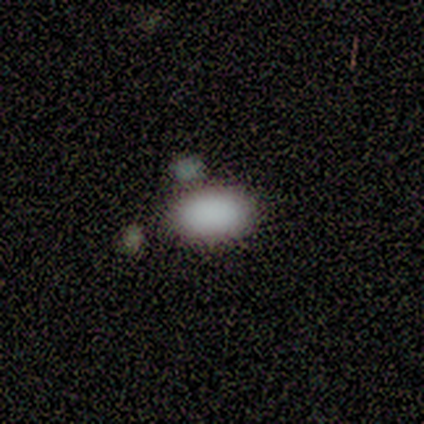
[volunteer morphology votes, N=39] smooth-or-featured: smooth: 92% | star or artifact: 8% | featured or disk: 0%
  how-rounded: in between: 92% | round: 6% | cigar-shaped: 3%
  merging: none: 72% | merger: 11% | minor disturbance: 8% | major disturbance: 8%